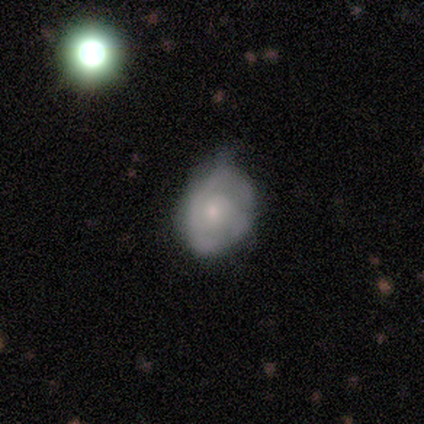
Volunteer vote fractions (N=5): Smooth or featured: featured or disk — 60% (smooth — 40%)
Edge-on disk: no — 100%
Bar: no — 100%
Spiral arms: no — 67% (yes — 33%)
Bulge size: moderate — 67% (small — 33%)
Merging: minor disturbance — 80% (none — 20%)